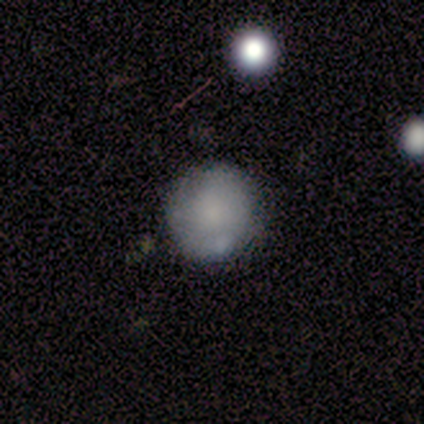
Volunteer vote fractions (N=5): Q: Smooth or featured?
A: smooth (100%)
Q: How rounded?
A: round (100%)
Q: Merging?
A: none (40%); tied with: minor disturbance (40%)